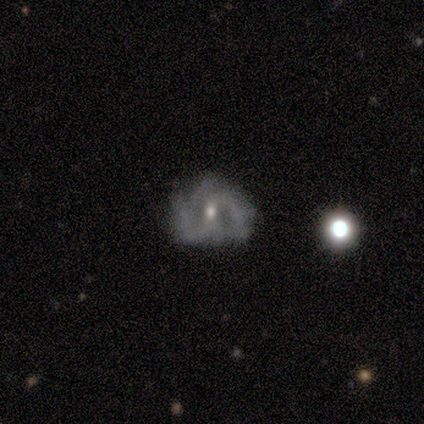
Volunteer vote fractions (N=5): Smooth or featured: featured or disk — 80% (star or artifact — 20%)
Edge-on disk: no — 100%
Bar: weak — 75% (no — 25%)
Spiral arms: yes — 75% (no — 25%)
Spiral winding: tight — 67% (loose — 33%)
Spiral arm count: 2 — 33% (tied with 3 — 33%; can't tell — 33%)
Bulge size: moderate — 75% (small — 25%)
Merging: none — 50% (tied with major disturbance — 50%)